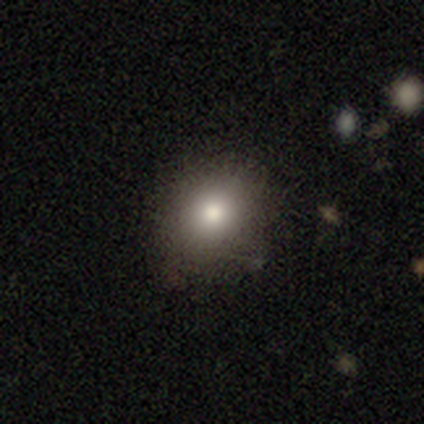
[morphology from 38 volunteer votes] Smooth or featured: smooth — 79% (featured or disk — 11%)
How rounded: round — 63% (in between — 37%)
Merging: none — 56% (minor disturbance — 6%)